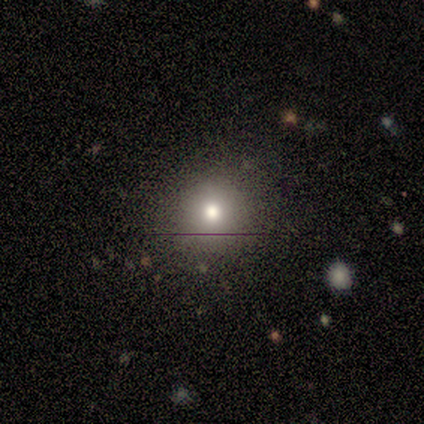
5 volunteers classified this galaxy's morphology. Overall: star or artifact (60%; smooth 40%).